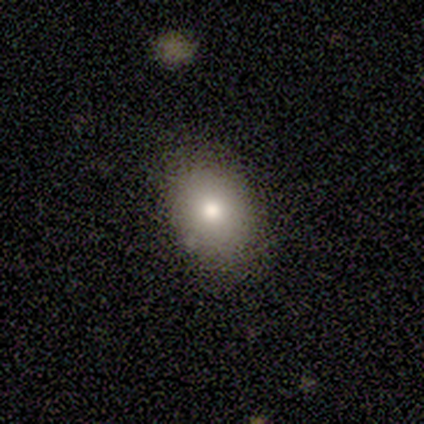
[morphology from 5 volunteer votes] smooth 60%, star or artifact 40%, featured or disk 0%. Down the decision tree: how rounded — in between (67%); merging — none (100%).